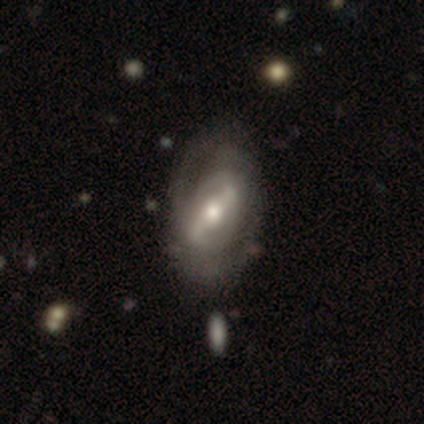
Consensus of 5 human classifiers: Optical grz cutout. It shows a featured or disk galaxy (80%) with a strong bar (50%, tied with weak), 2 (50%, tied with can't tell) tight (50%, tied with medium) spiral arms (50%, tied with no) and a moderate central bulge (50%, tied with small). Merging: none (50%).